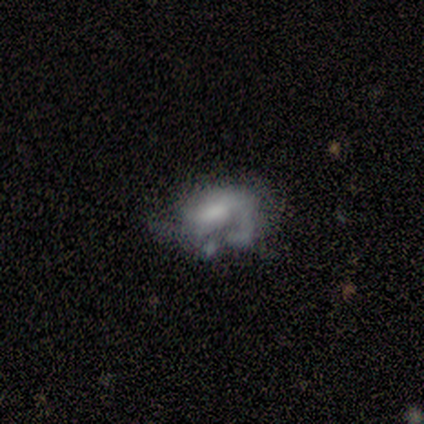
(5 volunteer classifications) Q: Smooth or featured?
A: featured or disk (60%); runner-up: smooth (40%)
Q: Edge-on disk?
A: no (100%)
Q: Bar?
A: no (67%); runner-up: weak (33%)
Q: Spiral arms?
A: yes (67%); runner-up: no (33%)
Q: Spiral winding?
A: tight (50%); tied with: medium (50%)
Q: Spiral arm count?
A: 2 (50%); tied with: can't tell (50%)
Q: Bulge size?
A: moderate (67%); runner-up: none (33%)
Q: Merging?
A: minor disturbance (60%); runner-up: none (20%)